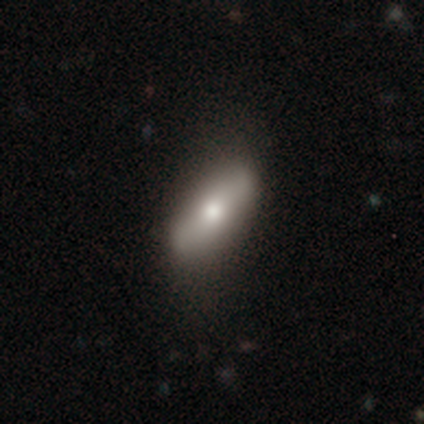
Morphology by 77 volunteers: This is likely a smooth galaxy (77%). How rounded: likely in between (80%). Merging: marginally none (39%).